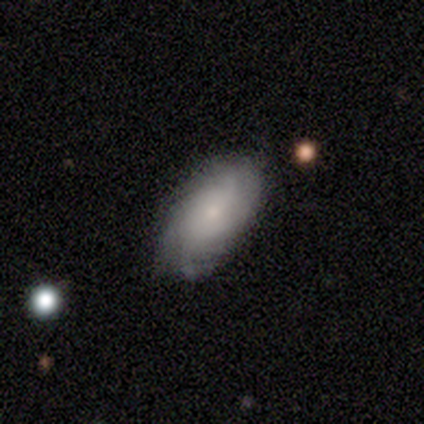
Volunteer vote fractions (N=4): featured or disk 75%, smooth 25%, star or artifact 0%. Down the decision tree: edge-on disk — no (100%); bar — weak (100%); spiral arms — yes (100%); spiral arm count — can't tell (67%); spiral winding — medium (67%); bulge size — small (67%); merging — none (75%).